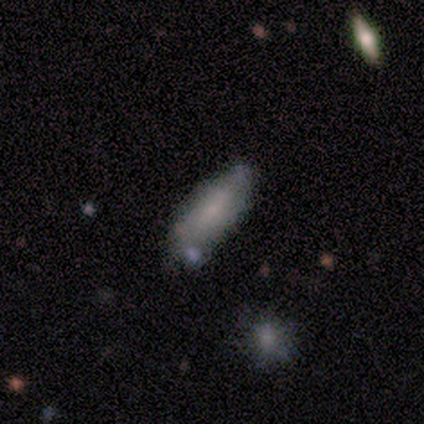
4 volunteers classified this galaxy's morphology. smooth-or-featured: smooth: 50% | featured or disk: 25% | star or artifact: 25%
  how-rounded: in between: 100% | round: 0% | cigar-shaped: 0%
  merging: none: 100% | minor disturbance: 0% | major disturbance: 0% | merger: 0%